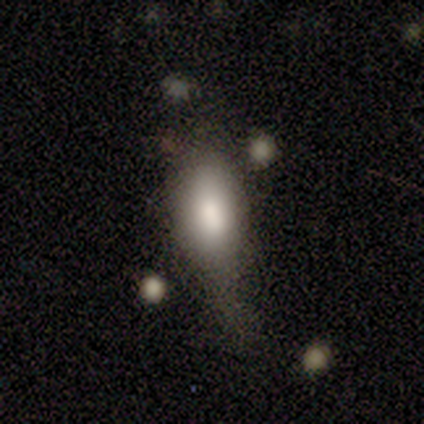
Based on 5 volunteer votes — Smooth or featured?
  - smooth: 80% *
  - star or artifact: 20%
  - featured or disk: 0%
How rounded?
  - in between: 100% *
  - round: 0%
  - cigar-shaped: 0%
Merging?
  - minor disturbance: 75% *
  - major disturbance: 25%
  - none: 0%
  - merger: 0%